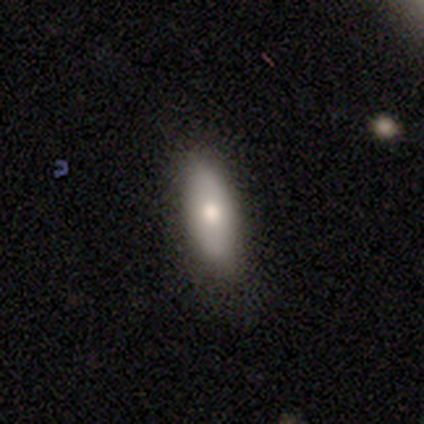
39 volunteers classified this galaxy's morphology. Q: Smooth or featured?
A: smooth (79%); runner-up: featured or disk (15%)
Q: How rounded?
A: in between (61%); runner-up: cigar-shaped (39%)
Q: Merging?
A: none (73%); runner-up: minor disturbance (22%)